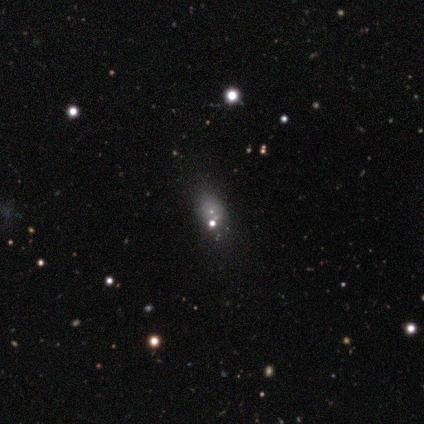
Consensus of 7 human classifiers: smooth-or-featured: smooth: 43% (tied) | star or artifact: 43% (tied) | featured or disk: 14%
  how-rounded: round: 67% | in between: 33% | cigar-shaped: 0%
  merging: minor disturbance: 50% | major disturbance: 25% | merger: 25% | none: 0%